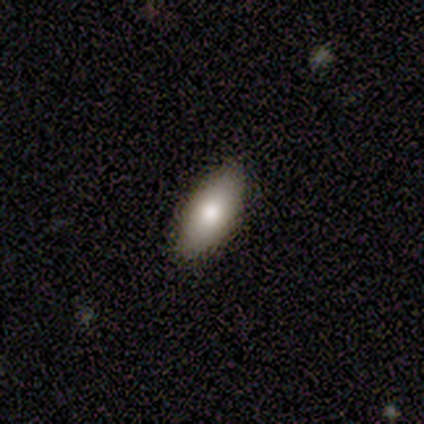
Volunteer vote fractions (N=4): This appears to be a smooth galaxy with no disk features (75%) that is in between round and cigar-shaped (100%). Merging: none (100%).